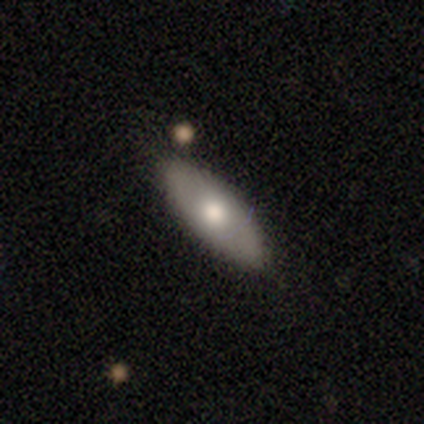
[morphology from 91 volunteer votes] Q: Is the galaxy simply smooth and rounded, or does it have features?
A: smooth — 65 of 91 (71%).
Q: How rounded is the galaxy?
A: in between — 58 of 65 (89%).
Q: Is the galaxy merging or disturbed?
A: none — 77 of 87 (89%).